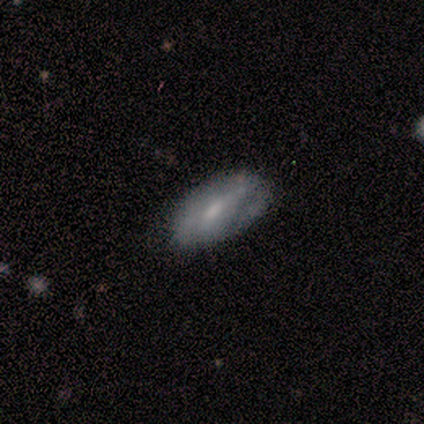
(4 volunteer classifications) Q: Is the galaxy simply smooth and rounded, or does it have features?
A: smooth — 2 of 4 (50%, tied with featured or disk).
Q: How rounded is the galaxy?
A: in between — 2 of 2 (100%).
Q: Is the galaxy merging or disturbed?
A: none — 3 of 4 (75%).